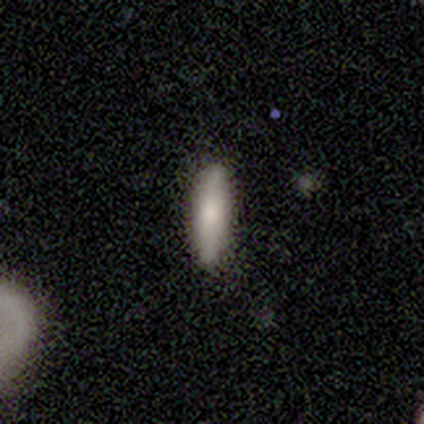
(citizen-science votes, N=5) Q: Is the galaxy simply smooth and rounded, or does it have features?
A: smooth — 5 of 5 (100%).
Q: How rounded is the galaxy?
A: cigar-shaped — 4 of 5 (80%).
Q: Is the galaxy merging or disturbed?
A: none — 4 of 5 (80%).